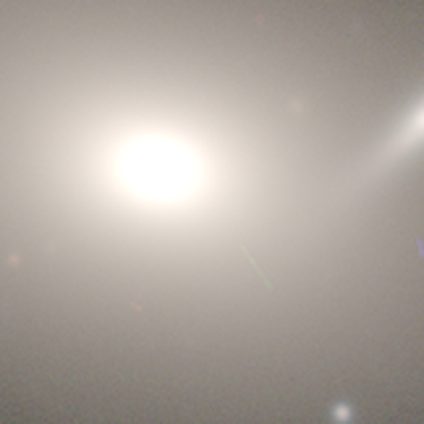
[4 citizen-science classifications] Smooth or featured: smooth — 50% (tied with star or artifact — 50%)
How rounded: in between — 100%
Merging: none — 100%